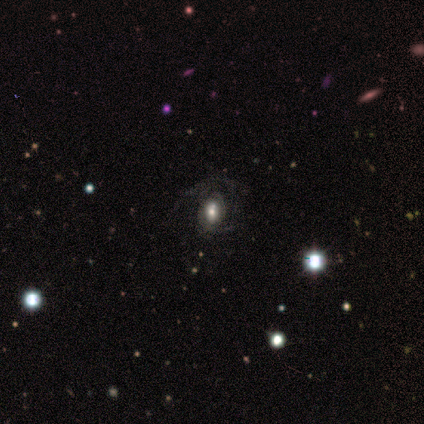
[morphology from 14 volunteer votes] Overall: smooth (50%; featured or disk 43%). How rounded: in between (100%). Merging: none (46%; major disturbance 31%).